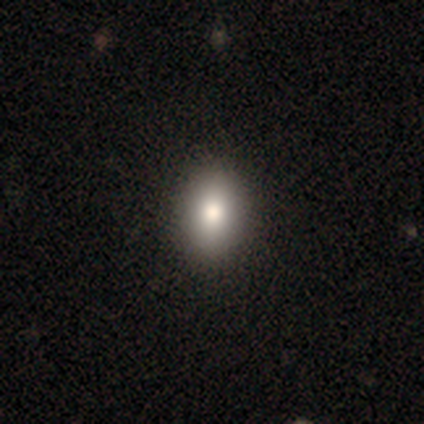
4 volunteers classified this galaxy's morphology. This appears to be a smooth galaxy with no disk features (100%) that is in between round and cigar-shaped (75%). Merging: none (100%).